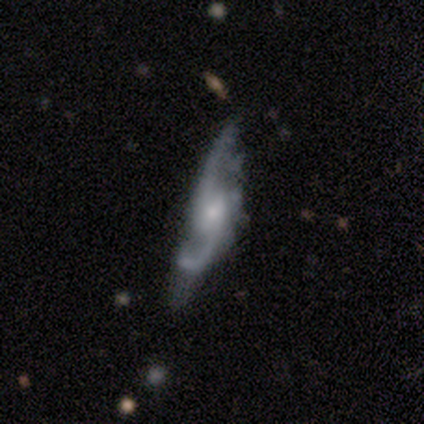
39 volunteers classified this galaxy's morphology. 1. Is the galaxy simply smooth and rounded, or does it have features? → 92% featured or disk, 5% smooth, 3% star or artifact.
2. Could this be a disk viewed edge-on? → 92% no, 8% yes.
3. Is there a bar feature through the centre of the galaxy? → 48% no, 45% weak, 6% strong.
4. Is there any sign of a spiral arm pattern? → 91% yes, 9% no.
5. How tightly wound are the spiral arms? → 73% loose, 17% medium, 10% tight.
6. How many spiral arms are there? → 93% 2, 3% 3, 3% 4, 0% 1, 0% more than 4, 0% can't tell.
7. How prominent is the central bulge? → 48% moderate, 39% small, 12% none, 0% dominant, 0% large.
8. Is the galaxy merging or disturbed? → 32% none, 13% major disturbance, 11% minor disturbance, 3% merger.